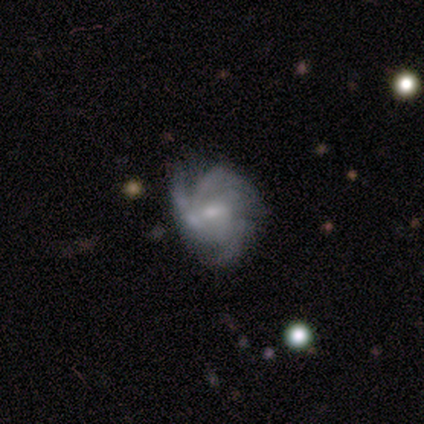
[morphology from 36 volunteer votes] Smooth or featured?
  - featured or disk: 75% *
  - smooth: 14%
  - star or artifact: 11%
Edge-on disk?
  - no: 100% *
  - yes: 0%
Bar?
  - no: 63% *
  - weak: 30%
  - strong: 7%
Spiral arms?
  - yes: 93% *
  - no: 7%
Spiral winding?
  - tight: 48% *
  - medium: 40%
  - loose: 12%
Spiral arm count?
  - 3: 40% *
  - can't tell: 28%
  - 4: 16%
  - 2: 12%
  - more than 4: 4%
  - 1: 0%
Bulge size?
  - small: 56% *
  - moderate: 41%
  - none: 4%
  - dominant: 0%
  - large: 0%
Merging?
  - none: 53% *
  - minor disturbance: 25%
  - major disturbance: 12%
  - merger: 9%